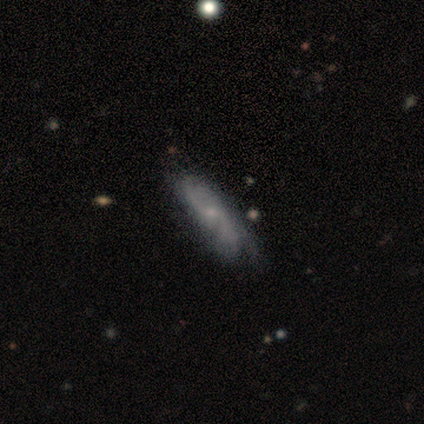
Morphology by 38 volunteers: A featured or disk galaxy (68%) with no bar (55%), 2 (62%) medium (38%) spiral arms (95%) and a small central bulge (82%).

Vote fractions:
- Smooth or featured? featured or disk: 68% / smooth: 29% / star or artifact: 3%
- Edge-on disk? no: 85% / yes: 15%
- Bar? no: 55% / weak: 41% / strong: 5%
- Spiral arms? yes: 95% / no: 5%
- Spiral winding? medium: 38% / loose: 33% / tight: 29%
- Spiral arm count? 2: 62% / 3: 19% / can't tell: 14% / 1: 5% / 4: 0% / more than 4: 0%
- Bulge size? small: 82% / moderate: 9% / none: 9% / dominant: 0% / large: 0%
- Merging? minor disturbance: 41% / none: 32% / merger: 5% / major disturbance: 0%